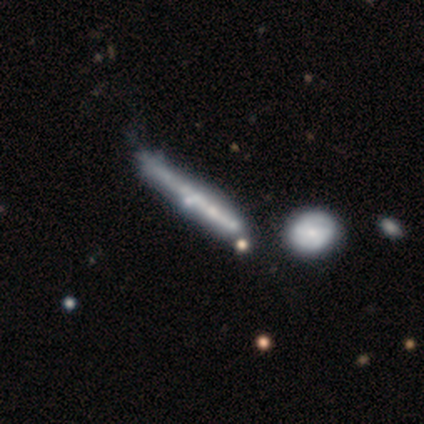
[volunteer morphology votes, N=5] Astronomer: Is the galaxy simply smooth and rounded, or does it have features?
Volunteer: smooth — 60% (runner-up: featured or disk, 40%).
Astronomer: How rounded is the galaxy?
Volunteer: cigar-shaped — 100%.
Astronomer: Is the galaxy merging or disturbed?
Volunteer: none — 100%.